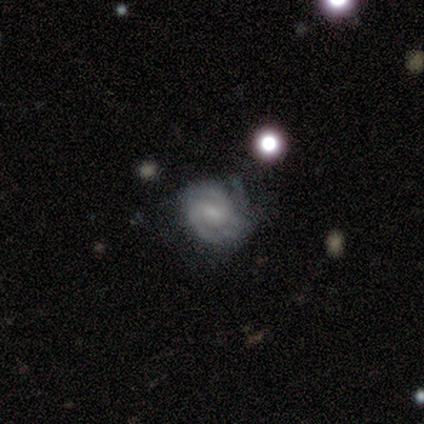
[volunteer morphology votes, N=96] smooth-or-featured: featured or disk: 83% | smooth: 10% | star or artifact: 6%
  disk-edge-on: no: 100% | yes: 0%
    bar: weak: 62% | no: 21% | strong: 16%
    has-spiral-arms: yes: 99% | no: 1%
      spiral-winding: tight: 59% | medium: 35% | loose: 5%
      spiral-arm-count: 2: 48% | 3: 32% | can't tell: 14% | 4: 4% | 1: 1% | more than 4: 1%
    bulge-size: small: 56% | moderate: 26% | none: 15% | dominant: 1% | large: 1%
  merging: none: 64% | minor disturbance: 31% | major disturbance: 4% | merger: 0%